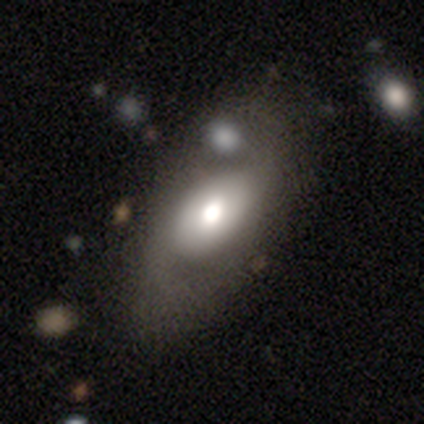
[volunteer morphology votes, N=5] type=featured or disk (60%); edge-on=no (100%); bar=no (100%); spiral arms=yes (67%); winding=tight (50%, tied with medium); arm count=2 (100%); bulge=small (67%); merging=none (40%, tied with minor disturbance).